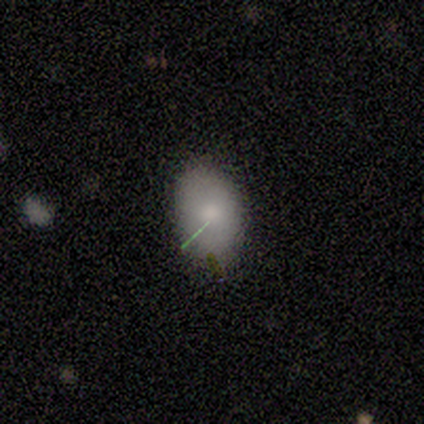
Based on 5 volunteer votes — smooth 100%, featured or disk 0%, star or artifact 0%. Down the decision tree: how rounded — in between (60%); merging — none (60%).